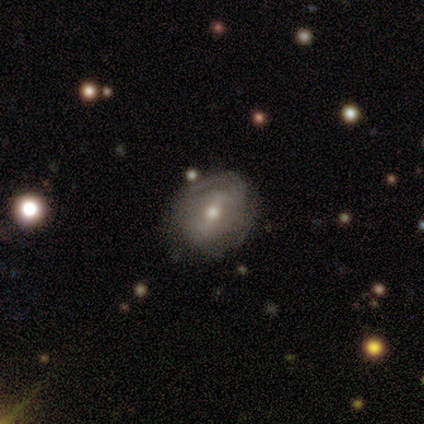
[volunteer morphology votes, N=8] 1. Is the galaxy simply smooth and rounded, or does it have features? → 50% smooth (tied), 50% featured or disk (tied), 0% star or artifact.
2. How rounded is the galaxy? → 100% in between, 0% round, 0% cigar-shaped.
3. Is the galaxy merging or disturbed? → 62% none, 38% minor disturbance, 0% major disturbance, 0% merger.